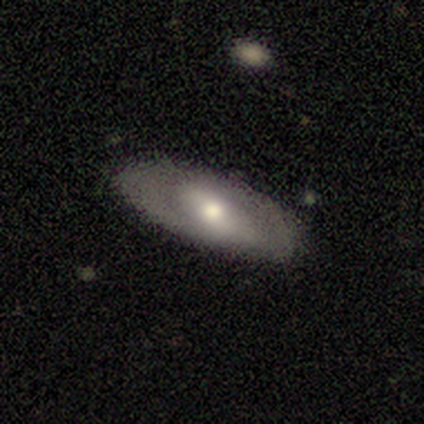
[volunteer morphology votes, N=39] smooth_or_featured: featured or disk (p=0.67) [alt: smooth p=0.28]
disk_edge_on: no (p=0.73) [alt: yes p=0.27]
bar: weak (p=0.63) [alt: no p=0.21]
has_spiral_arms: no (p=0.63) [alt: yes p=0.37]
bulge_size: moderate (p=0.53) [alt: small p=0.26]
merging: none (p=0.84) [alt: minor disturbance p=0.11]